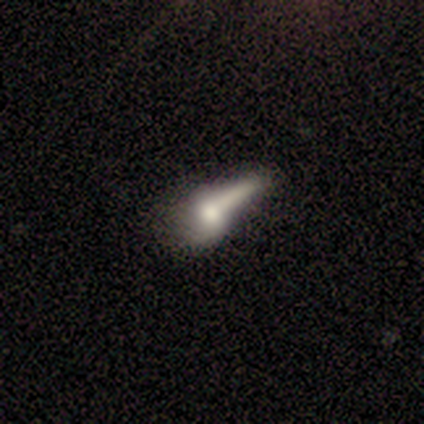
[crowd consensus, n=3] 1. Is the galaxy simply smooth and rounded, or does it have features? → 67% featured or disk, 33% smooth, 0% star or artifact.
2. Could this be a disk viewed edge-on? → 100% no, 0% yes.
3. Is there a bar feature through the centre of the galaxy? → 100% no, 0% strong, 0% weak.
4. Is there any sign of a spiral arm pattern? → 50% yes (tied), 50% no (tied).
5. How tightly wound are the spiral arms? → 100% loose, 0% tight, 0% medium.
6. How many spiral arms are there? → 100% 1, 0% 2, 0% 3, 0% 4, 0% more than 4, 0% can't tell.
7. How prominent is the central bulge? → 100% large, 0% dominant, 0% moderate, 0% small, 0% none.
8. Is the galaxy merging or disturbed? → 33% minor disturbance (tied), 33% major disturbance (tied), 33% merger (tied), 0% none.